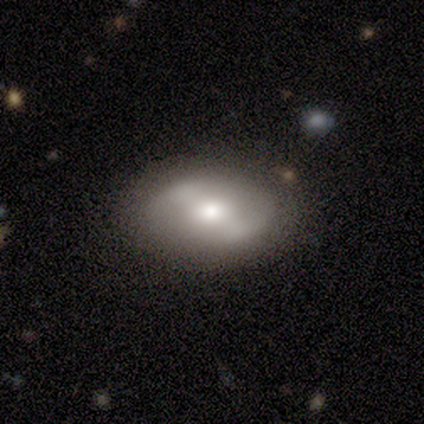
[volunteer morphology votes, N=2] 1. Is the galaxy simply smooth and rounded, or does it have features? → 50% smooth (tied), 50% featured or disk (tied), 0% star or artifact.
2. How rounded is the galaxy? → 100% round, 0% in between, 0% cigar-shaped.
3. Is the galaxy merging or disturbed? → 100% none, 0% minor disturbance, 0% major disturbance, 0% merger.